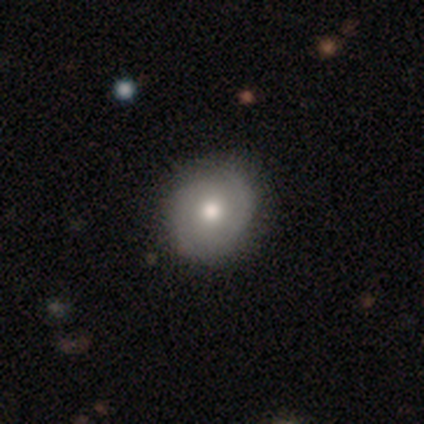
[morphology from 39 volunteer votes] A featured or disk galaxy (51%) with no bar (84%), 2 (65%) tight (53%) spiral arms (89%) and a moderate central bulge (68%). Merging: none (82%).